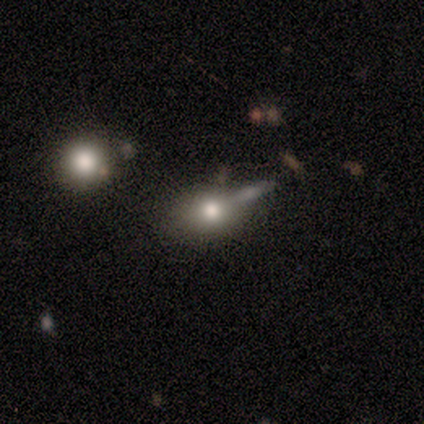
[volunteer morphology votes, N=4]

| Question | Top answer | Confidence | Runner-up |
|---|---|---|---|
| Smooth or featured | smooth | 75% | star or artifact (25%) |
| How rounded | in between | 67% | round (33%) |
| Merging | merger | 100% | — |